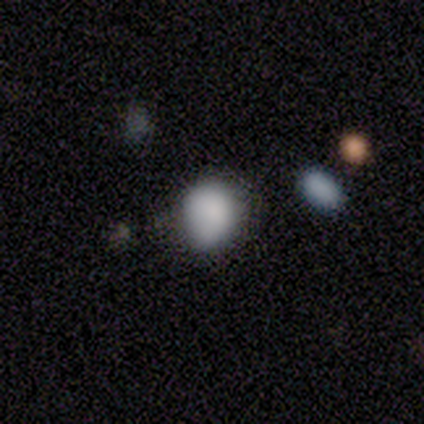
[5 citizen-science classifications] A smooth galaxy with no disk features (80%) that is round (50%, tied with in between). Merging: minor disturbance (75%).